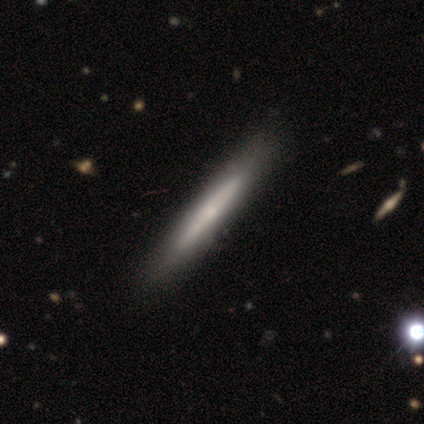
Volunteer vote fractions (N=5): Smooth or featured: featured or disk — 80% (smooth — 20%)
Edge-on disk: yes — 100%
Edge-on bulge: none — 75% (rounded — 25%)
Merging: none — 80% (merger — 20%)